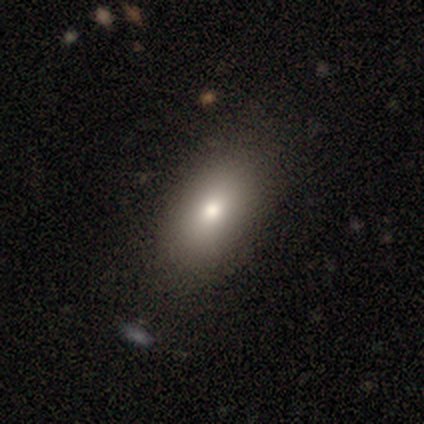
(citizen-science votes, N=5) A smooth galaxy with no disk features (100%) that is in between round and cigar-shaped (100%). Merging: none (100%).